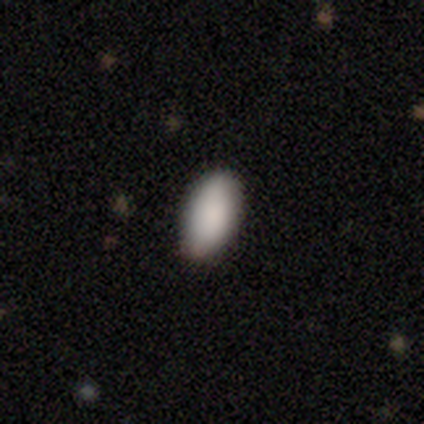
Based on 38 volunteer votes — Smooth or featured? 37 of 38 (97%) said smooth. How rounded? 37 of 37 (100%) said in between. Merging? 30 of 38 (79%) said none.